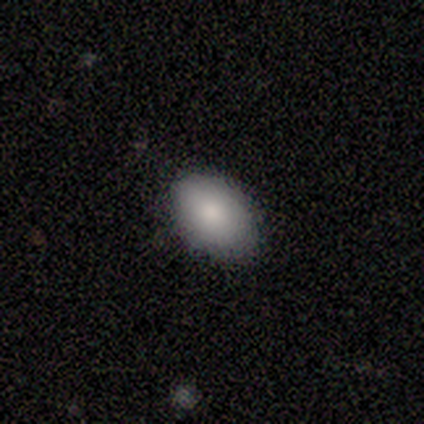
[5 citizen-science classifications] This is likely a smooth galaxy (60%). How rounded: clearly in between (100%). Merging: clearly none (100%).